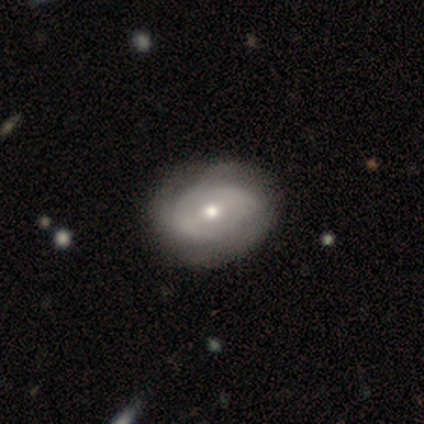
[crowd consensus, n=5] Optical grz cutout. It shows a featured or disk galaxy (100%) with a weak bar (75%), 2 (50%, tied with can't tell) medium (50%, tied with loose) spiral arms (50%, tied with no) and a small central bulge (75%). Merging: minor disturbance (60%).